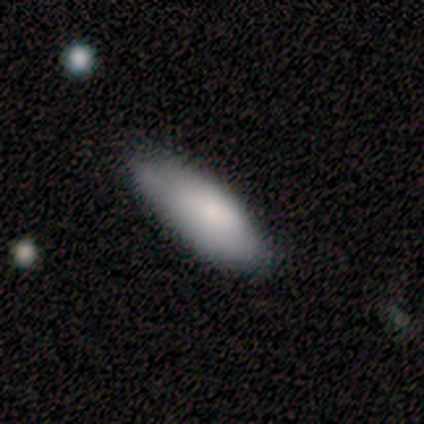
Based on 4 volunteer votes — Smooth or featured?
  - smooth: 75% *
  - featured or disk: 25%
  - star or artifact: 0%
How rounded?
  - in between: 67% *
  - cigar-shaped: 33%
  - round: 0%
Merging?
  - none: 75% *
  - minor disturbance: 25%
  - major disturbance: 0%
  - merger: 0%